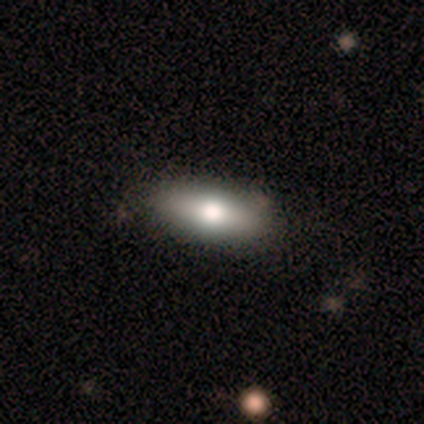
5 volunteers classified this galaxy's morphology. Smooth or featured? 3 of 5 (60%) said featured or disk. Edge-on disk? 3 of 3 (100%) said yes. Edge-on bulge? 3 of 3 (100%) said rounded. Merging? 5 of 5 (100%) said none.